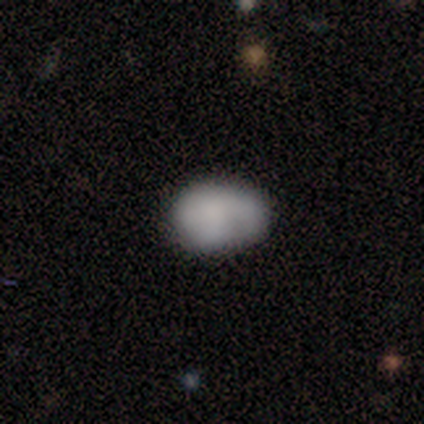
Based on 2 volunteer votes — Smooth or featured: smooth — 100%
How rounded: in between — 100%
Merging: none — 50% (tied with minor disturbance — 50%)